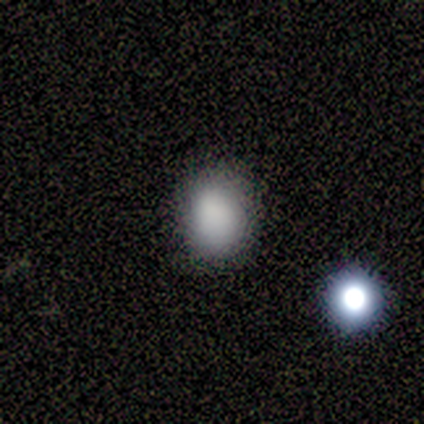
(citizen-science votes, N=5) This is clearly a smooth galaxy (80%). How rounded: likely in between (75%). Merging: clearly none (80%).